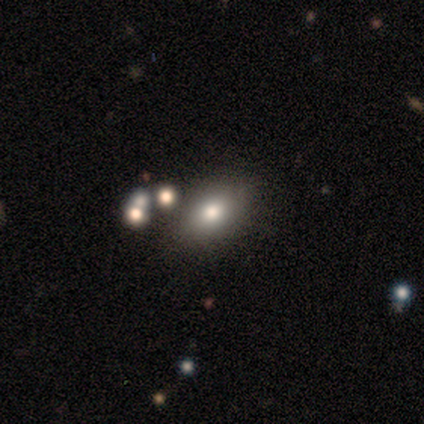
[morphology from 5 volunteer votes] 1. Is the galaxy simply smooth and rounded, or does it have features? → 80% smooth, 20% featured or disk, 0% star or artifact.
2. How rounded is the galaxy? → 75% in between, 25% cigar-shaped, 0% round.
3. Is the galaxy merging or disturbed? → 80% none, 20% merger, 0% minor disturbance, 0% major disturbance.